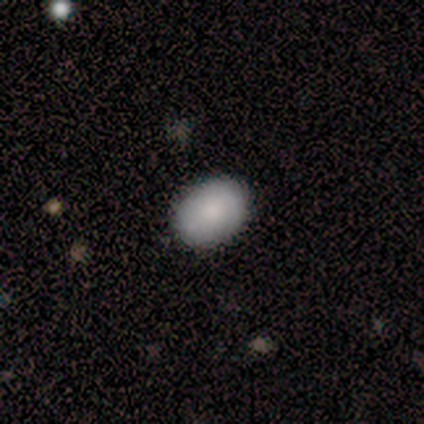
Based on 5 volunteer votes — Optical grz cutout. It shows a smooth galaxy with no disk features (80%) that is in between round and cigar-shaped (100%). Merging: none (75%).